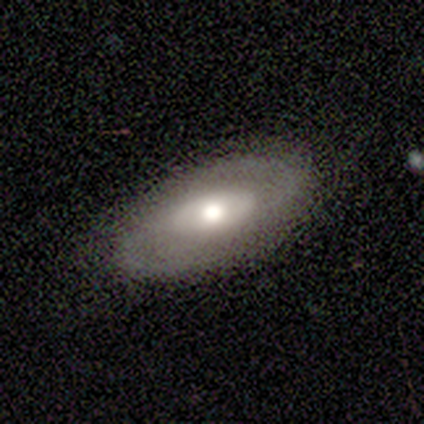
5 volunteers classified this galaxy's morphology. Smooth or featured: featured or disk — 100%
Edge-on disk: no — 100%
Bar: no — 60% (strong — 20%)
Spiral arms: yes — 100%
Spiral winding: medium — 80% (tight — 20%)
Spiral arm count: 2 — 80% (can't tell — 20%)
Bulge size: large — 60% (moderate — 40%)
Merging: none — 100%